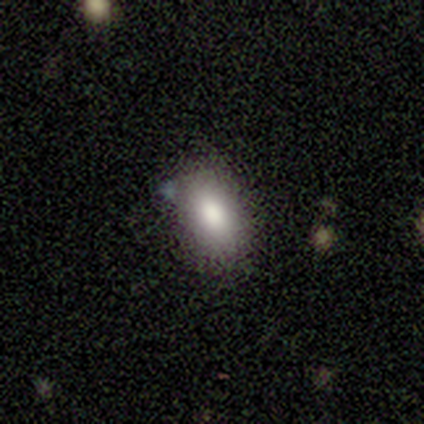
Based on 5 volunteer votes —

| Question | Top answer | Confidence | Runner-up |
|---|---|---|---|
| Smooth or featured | smooth | 80% | featured or disk (20%) |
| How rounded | in between | 100% | — |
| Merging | none | 100% | — |